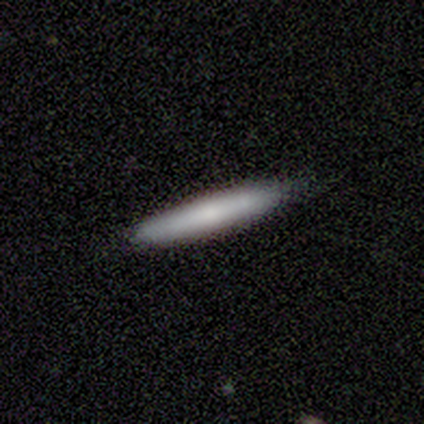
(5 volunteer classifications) Q: Smooth or featured?
A: smooth (60%); runner-up: featured or disk (40%)
Q: How rounded?
A: cigar-shaped (100%)
Q: Merging?
A: none (80%); runner-up: minor disturbance (20%)